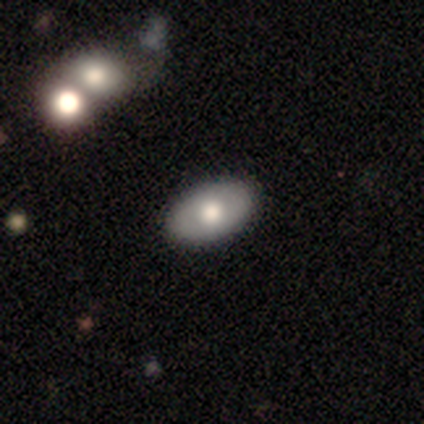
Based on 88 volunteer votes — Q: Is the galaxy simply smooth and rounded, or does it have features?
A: smooth — 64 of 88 (73%).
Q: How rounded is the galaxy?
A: in between — 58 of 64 (91%).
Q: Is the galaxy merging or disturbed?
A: none — 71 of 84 (85%).